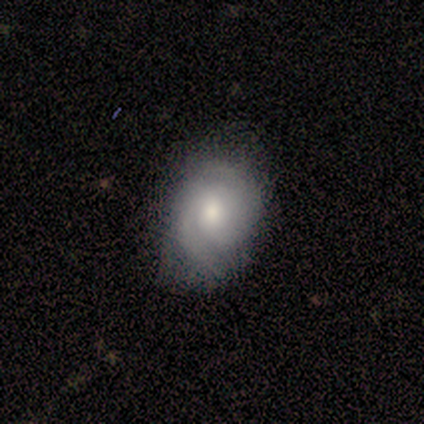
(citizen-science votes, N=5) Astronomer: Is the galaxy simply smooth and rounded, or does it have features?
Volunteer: featured or disk — 60%.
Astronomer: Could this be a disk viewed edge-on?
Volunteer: no — 100%.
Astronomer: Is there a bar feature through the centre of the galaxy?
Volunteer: no — 100%.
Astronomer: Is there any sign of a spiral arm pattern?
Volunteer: yes — 67%.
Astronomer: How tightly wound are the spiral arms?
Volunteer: tight — 50%, tied with medium at 50%.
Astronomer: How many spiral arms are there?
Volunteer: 2 — 50%, tied with can't tell at 50%.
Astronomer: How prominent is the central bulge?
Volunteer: moderate — 100%.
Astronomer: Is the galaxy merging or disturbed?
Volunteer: minor disturbance — 75%.